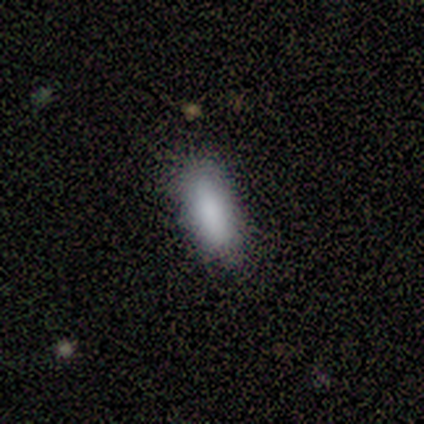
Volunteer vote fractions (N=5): smooth-or-featured: smooth: 100% | featured or disk: 0% | star or artifact: 0%
  how-rounded: in between: 80% | cigar-shaped: 20% | round: 0%
  merging: none: 100% | minor disturbance: 0% | major disturbance: 0% | merger: 0%